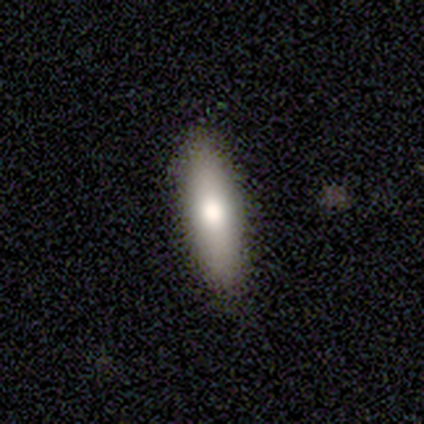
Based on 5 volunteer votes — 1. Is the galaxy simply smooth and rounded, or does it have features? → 100% smooth, 0% featured or disk, 0% star or artifact.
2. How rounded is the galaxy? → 80% in between, 20% cigar-shaped, 0% round.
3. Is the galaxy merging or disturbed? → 100% none, 0% minor disturbance, 0% major disturbance, 0% merger.